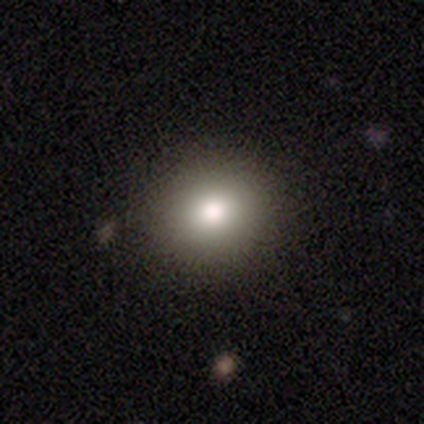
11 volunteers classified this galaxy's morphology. A smooth galaxy with no disk features (100%) that is round (100%).

Vote fractions:
- Smooth or featured? smooth: 100% / featured or disk: 0% / star or artifact: 0%
- How rounded? round: 100% / in between: 0% / cigar-shaped: 0%
- Merging? none: 91% / minor disturbance: 9% / major disturbance: 0% / merger: 0%